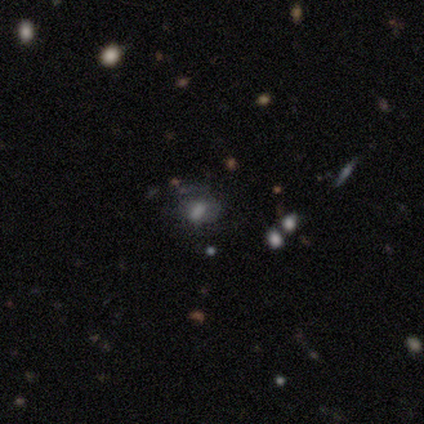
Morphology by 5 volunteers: smooth 80%, star or artifact 20%, featured or disk 0%. Down the decision tree: how rounded — in between (100%); merging — none (50%, tied with minor disturbance).